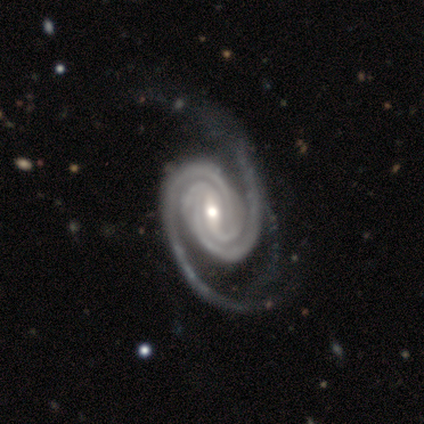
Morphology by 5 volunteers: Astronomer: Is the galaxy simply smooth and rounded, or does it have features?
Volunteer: featured or disk — 80%.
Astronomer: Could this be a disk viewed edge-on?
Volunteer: no — 100%.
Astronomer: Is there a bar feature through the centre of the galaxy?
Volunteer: strong — 75%.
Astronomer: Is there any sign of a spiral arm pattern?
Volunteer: yes — 100%.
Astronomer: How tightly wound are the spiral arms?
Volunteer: tight — 50%.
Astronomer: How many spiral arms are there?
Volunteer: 2 — 50%.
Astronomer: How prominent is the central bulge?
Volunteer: moderate — 100%.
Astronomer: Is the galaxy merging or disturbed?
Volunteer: minor disturbance — 50%.